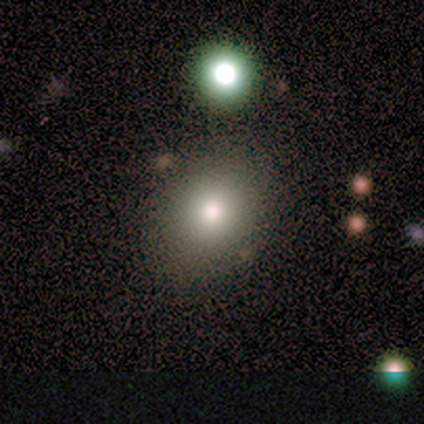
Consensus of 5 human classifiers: Overall: smooth (100%). How rounded: in between (60%; round 40%). Merging: none (100%).